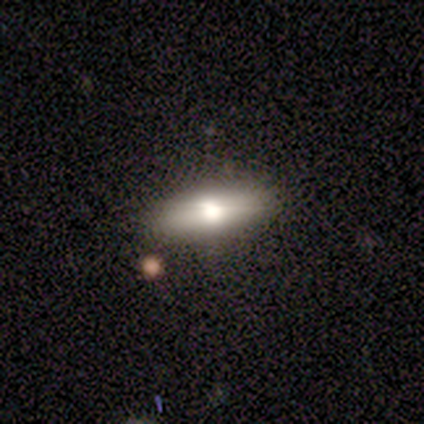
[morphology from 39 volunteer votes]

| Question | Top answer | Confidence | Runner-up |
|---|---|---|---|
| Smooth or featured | smooth | 59% | featured or disk (31%) |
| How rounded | in between | 61% | cigar-shaped (35%) |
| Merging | none | 89% | major disturbance (6%) |